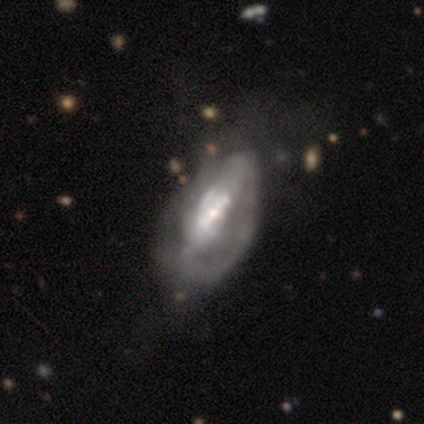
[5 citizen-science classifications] This is clearly a featured or disk galaxy (100%). It is clearly not viewed edge-on (80%). Bar: possibly strong (50%). Spiral arm pattern: possibly yes (50%, tied with no). Spiral arm count: possibly 1 (50%, tied with can't tell). Spiral winding: possibly tight (50%, tied with loose). Central bulge: possibly small (50%). Merging: clearly major disturbance (100%).